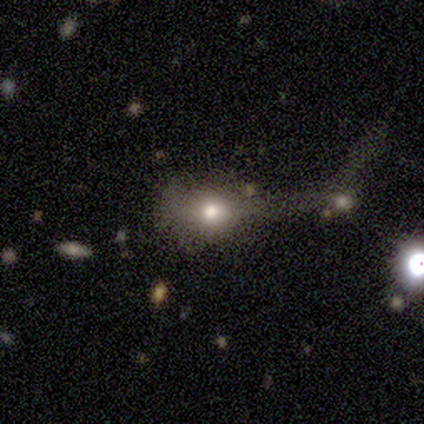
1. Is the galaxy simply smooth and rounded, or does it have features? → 75% smooth, 25% star or artifact, 0% featured or disk.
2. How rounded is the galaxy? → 67% in between, 33% round, 0% cigar-shaped.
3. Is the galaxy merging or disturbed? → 67% minor disturbance, 33% major disturbance, 0% none, 0% merger.